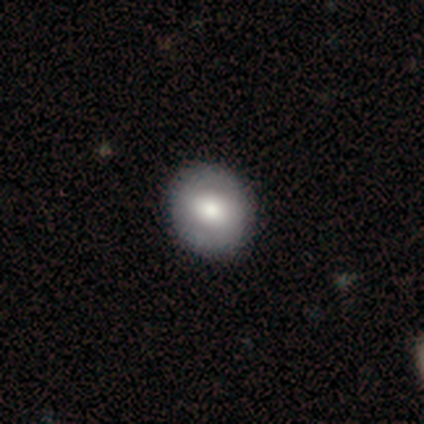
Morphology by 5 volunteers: A smooth galaxy with no disk features (60%) that is round (100%). Merging: none (100%).